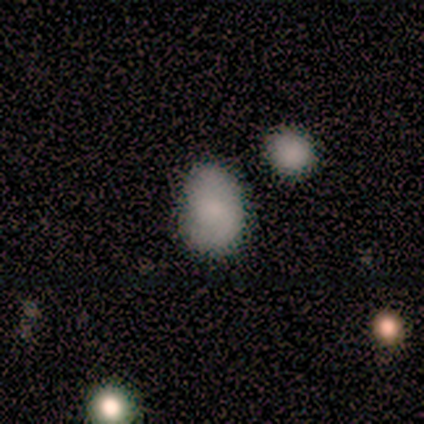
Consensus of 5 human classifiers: Q: Smooth or featured?
A: smooth (100%)
Q: How rounded?
A: in between (60%); runner-up: round (40%)
Q: Merging?
A: none (60%); runner-up: minor disturbance (40%)